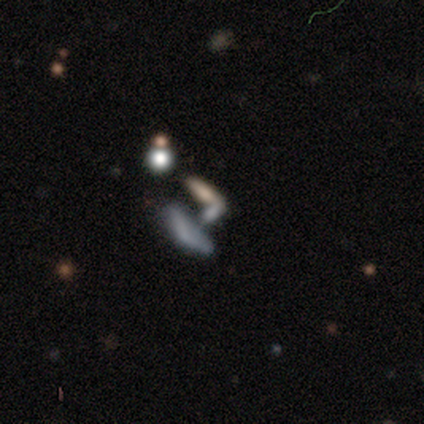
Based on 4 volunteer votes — featured or disk 50%, smooth 25%, star or artifact 25%. Down the decision tree: edge-on disk — no (100%); bar — no (100%); spiral arms — no (100%); bulge size — dominant (50%, tied with none); merging — none (67%).